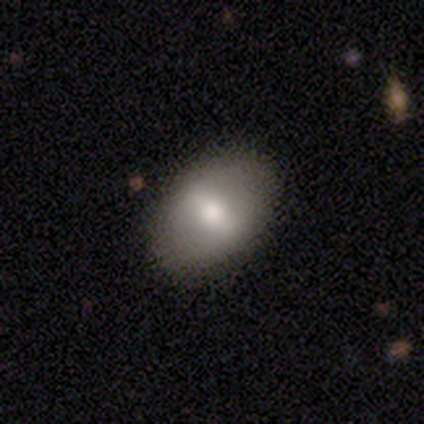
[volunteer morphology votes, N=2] Smooth or featured? smooth (100%)
How rounded? in between (100%)
Merging? none (50%, tied with minor disturbance)